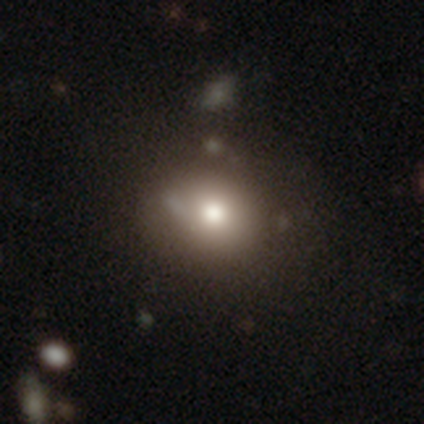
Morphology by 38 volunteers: smooth_or_featured: smooth (p=0.50) [alt: featured or disk p=0.26]
how_rounded: in between (p=0.63) [alt: round p=0.37]
merging: none (p=0.79) [alt: minor disturbance p=0.10]